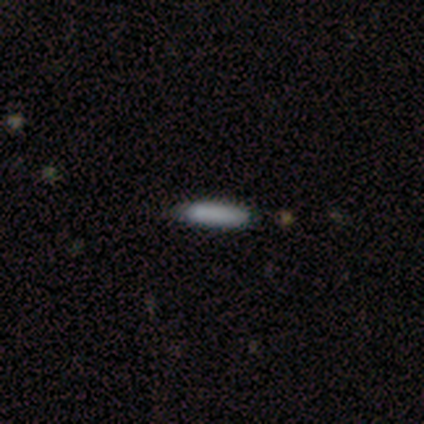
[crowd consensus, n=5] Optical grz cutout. It shows a smooth galaxy with no disk features (80%) that is in between round and cigar-shaped (50%, tied with cigar-shaped). Merging: none (100%).